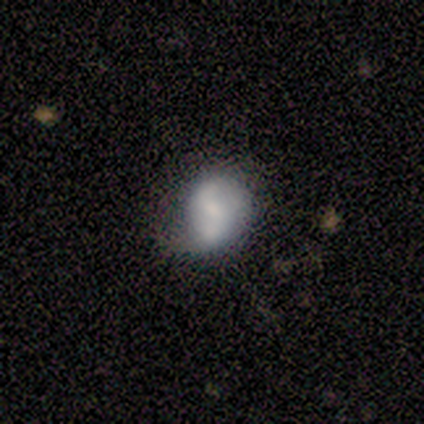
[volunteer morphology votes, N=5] Smooth or featured? 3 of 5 (60%) said smooth. How rounded? 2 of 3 (67%) said in between. Merging? 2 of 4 (50%) said none.